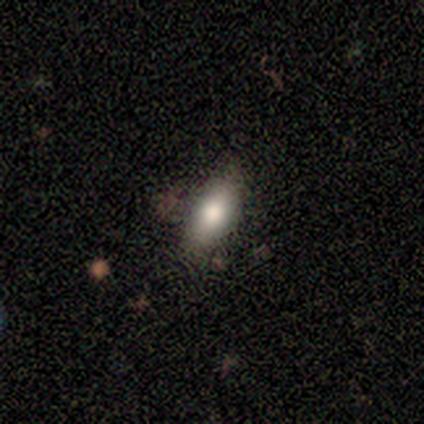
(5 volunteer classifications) smooth-or-featured: smooth: 60% | featured or disk: 20% | star or artifact: 20%
  how-rounded: cigar-shaped: 67% | in between: 33% | round: 0%
  merging: none: 50% | minor disturbance: 25% | major disturbance: 25% | merger: 0%